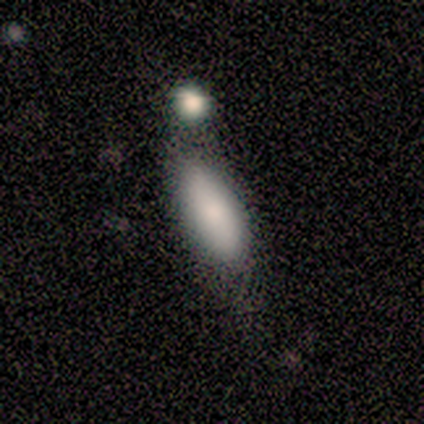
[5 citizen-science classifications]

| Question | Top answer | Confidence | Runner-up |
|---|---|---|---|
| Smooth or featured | smooth | 80% | featured or disk (20%) |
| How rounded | in between | 50% | tied: cigar-shaped (50%) |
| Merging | none | 80% | minor disturbance (20%) |